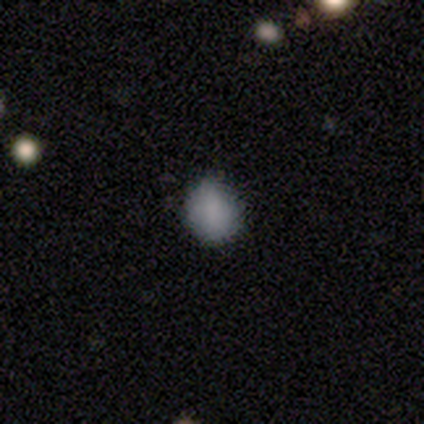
smooth_or_featured: smooth (p=0.89) [alt: star or artifact p=0.11]
how_rounded: in between (p=0.75) [alt: round p=0.25]
merging: none (p=1.00)